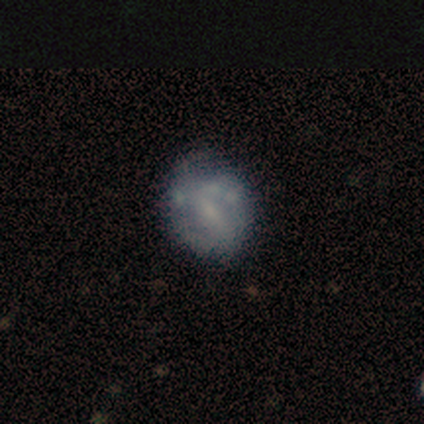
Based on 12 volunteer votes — This is possibly a featured or disk galaxy (58%). It is clearly not viewed edge-on (100%). Bar: possibly no (57%). Spiral arm pattern: likely no (71%). Central bulge: likely small (71%). Merging: likely none (67%).